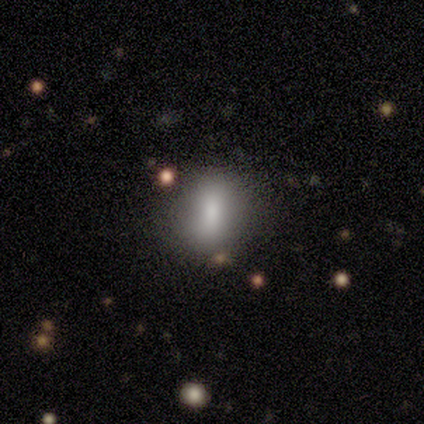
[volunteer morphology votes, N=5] A smooth galaxy with no disk features (100%) that is in between round and cigar-shaped (60%).

Vote fractions:
- Smooth or featured? smooth: 100% / featured or disk: 0% / star or artifact: 0%
- How rounded? in between: 60% / round: 20% / cigar-shaped: 20%
- Merging? none: 80% / minor disturbance: 20% / major disturbance: 0% / merger: 0%